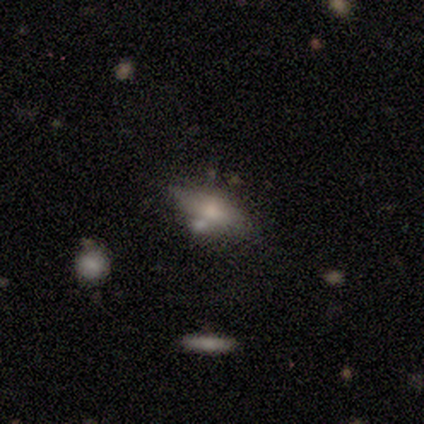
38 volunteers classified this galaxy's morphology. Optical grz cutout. It shows a smooth galaxy with no disk features (55%) that is in between round and cigar-shaped (90%). Merging: none (50%).